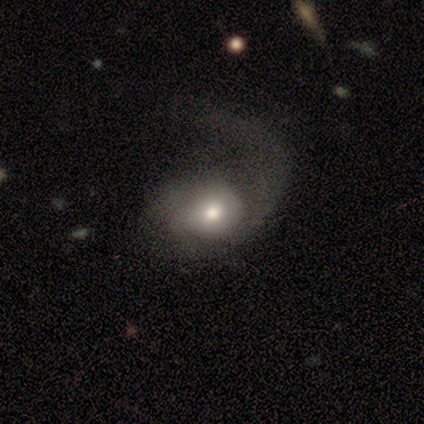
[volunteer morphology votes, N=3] This appears to be a featured or disk galaxy (100%) with no bar (67%), no spiral arms (67%) and a moderate central bulge (67%). Merging: major disturbance (100%).